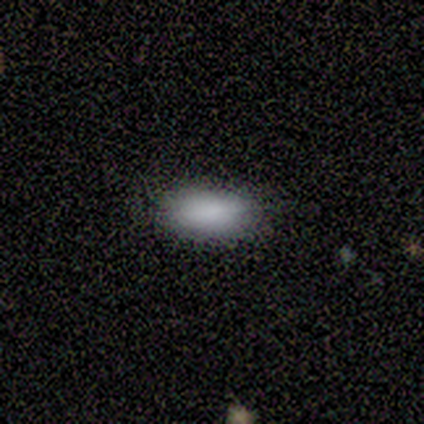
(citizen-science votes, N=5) Morphology: type=smooth (80%); roundness=in between (100%); merging=none (50%, tied with minor disturbance).